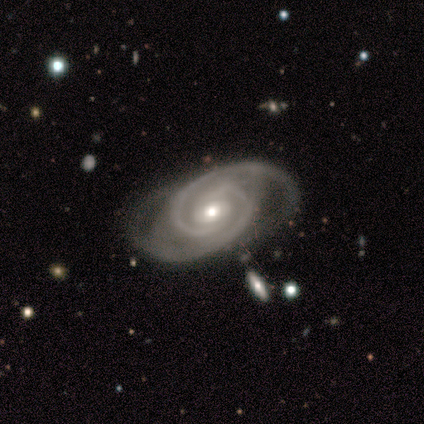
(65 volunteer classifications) featured or disk 94%, star or artifact 5%, smooth 2%. Down the decision tree: edge-on disk — no (93%); bar — no (60%); spiral arms — yes (98%); spiral arm count — 2 (86%); spiral winding — tight (50%, tied with medium); bulge size — moderate (58%); merging — none (55%).